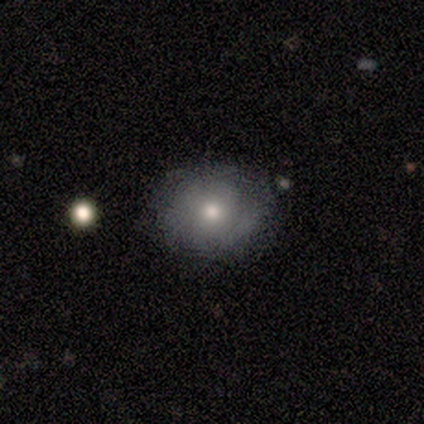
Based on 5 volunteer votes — Smooth or featured?
  - smooth: 60% *
  - featured or disk: 20%
  - star or artifact: 20%
How rounded?
  - round: 67% *
  - in between: 33%
  - cigar-shaped: 0%
Merging?
  - none: 75% *
  - minor disturbance: 25%
  - major disturbance: 0%
  - merger: 0%